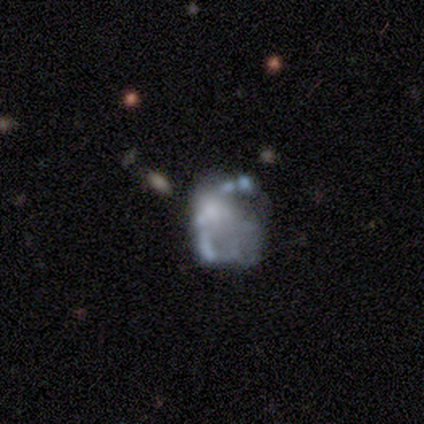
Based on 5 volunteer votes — featured or disk 60%, star or artifact 40%, smooth 0%. Down the decision tree: edge-on disk — no (100%); bar — no (100%); spiral arms — no (100%); bulge size — moderate (67%); merging — major disturbance (67%).